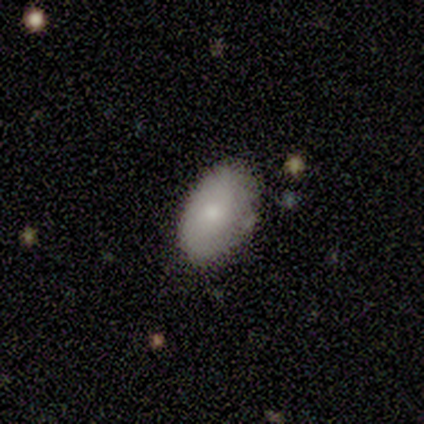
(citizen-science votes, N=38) smooth-or-featured: smooth: 74% | featured or disk: 13% | star or artifact: 13%
  how-rounded: in between: 86% | round: 14% | cigar-shaped: 0%
  merging: none: 79% | minor disturbance: 21% | major disturbance: 0% | merger: 0%